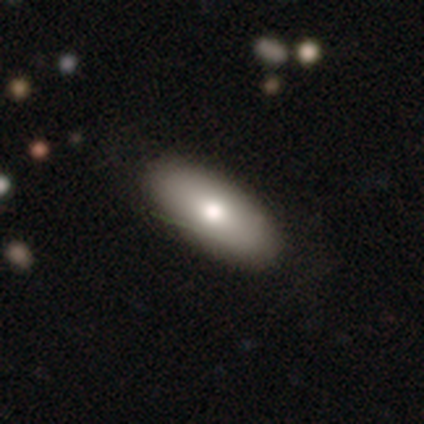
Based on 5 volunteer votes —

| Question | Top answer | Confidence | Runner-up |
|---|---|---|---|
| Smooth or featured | smooth | 80% | featured or disk (20%) |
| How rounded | in between | 75% | round (25%) |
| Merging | none | 60% | minor disturbance (20%) |